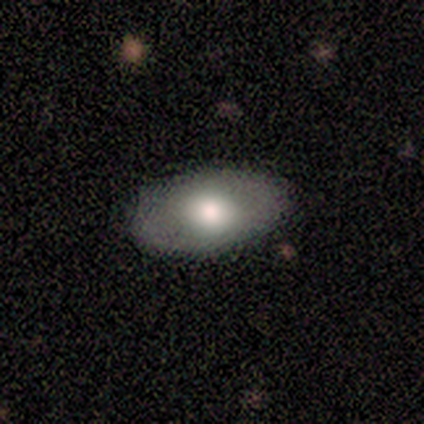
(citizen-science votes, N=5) Volunteers were most divided on "merging": none: 60%, minor disturbance: 40%, major disturbance: 0%, merger: 0%. More confident: how rounded — in between (100%); smooth or featured — smooth (80%).